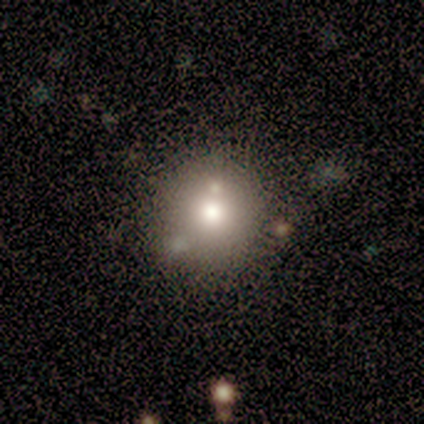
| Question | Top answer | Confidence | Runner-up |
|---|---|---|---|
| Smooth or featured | star or artifact | 50% | smooth (25%) |